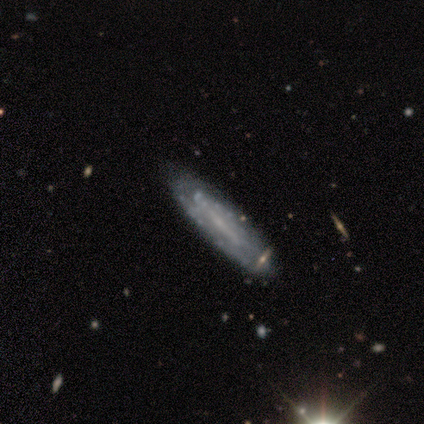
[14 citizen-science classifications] Volunteers were most divided on "bar": no: 56%, strong: 22%, weak: 22%. More confident: spiral arms — yes (89%); smooth or featured — featured or disk (86%); bulge size — small (78%); edge-on disk — no (75%); spiral winding — tight (75%); spiral arm count — can't tell (62%); merging — none (57%).